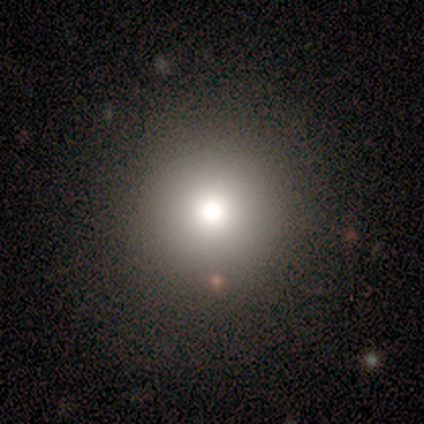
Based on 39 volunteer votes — Q: Smooth or featured?
A: smooth (74%); runner-up: star or artifact (18%)
Q: How rounded?
A: round (100%)
Q: Merging?
A: none (81%); runner-up: minor disturbance (9%)